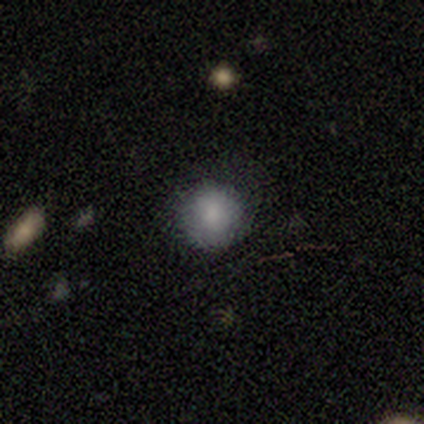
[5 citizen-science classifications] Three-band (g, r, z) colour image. It shows a smooth galaxy with no disk features (100%) that is round (100%). Merging: none (100%).